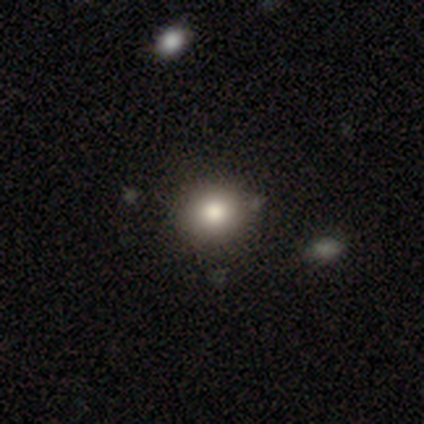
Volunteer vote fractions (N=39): This appears to be a smooth galaxy with no disk features (87%) that is round (82%). Merging: none (81%).